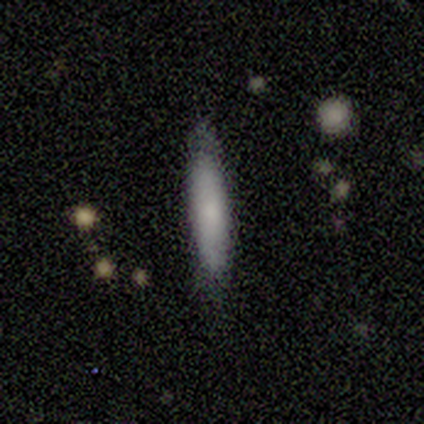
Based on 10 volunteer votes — Smooth or featured? smooth (70%)
How rounded? cigar-shaped (86%)
Merging? none (80%)